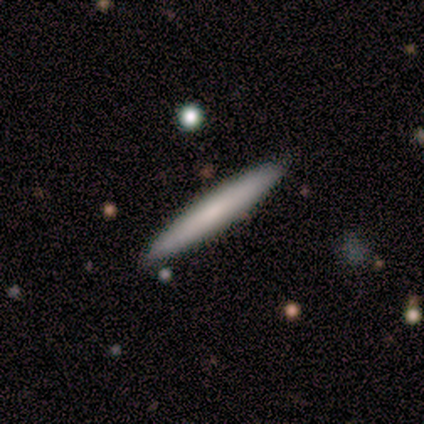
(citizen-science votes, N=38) Smooth or featured? 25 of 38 (66%) said smooth. How rounded? 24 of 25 (96%) said cigar-shaped. Merging? 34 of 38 (89%) said none.